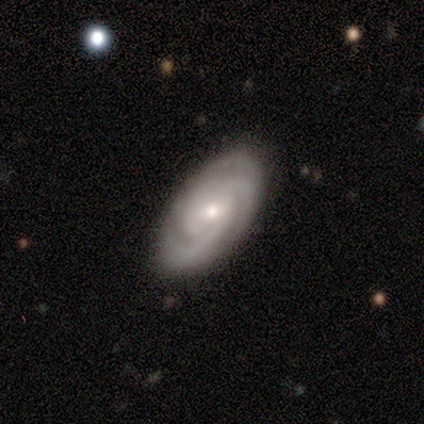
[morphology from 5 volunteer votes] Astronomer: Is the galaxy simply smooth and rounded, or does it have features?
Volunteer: featured or disk — 80%.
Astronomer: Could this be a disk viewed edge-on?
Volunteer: no — 100%.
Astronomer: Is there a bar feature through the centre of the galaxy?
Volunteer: no — 75%.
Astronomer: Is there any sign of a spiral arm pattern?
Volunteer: yes — 75%.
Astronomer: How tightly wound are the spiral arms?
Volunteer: tight — 100%.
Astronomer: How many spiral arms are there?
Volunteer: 3 — 100%.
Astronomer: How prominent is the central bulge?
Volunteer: small — 75%.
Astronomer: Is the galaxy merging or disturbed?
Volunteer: none — 100%.